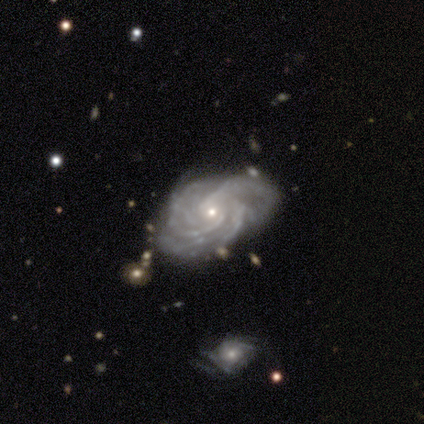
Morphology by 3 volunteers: smooth-or-featured: featured or disk: 100% | smooth: 0% | star or artifact: 0%
  disk-edge-on: no: 100% | yes: 0%
    bar: no: 67% | strong: 33% | weak: 0%
    has-spiral-arms: yes: 100% | no: 0%
      spiral-winding: tight: 100% | medium: 0% | loose: 0%
      spiral-arm-count: 3: 33% (tied) | 4: 33% (tied) | more than 4: 33% (tied) | 1: 0% | 2: 0% | can't tell: 0%
    bulge-size: small: 100% | dominant: 0% | large: 0% | moderate: 0% | none: 0%
  merging: none: 67% | minor disturbance: 33% | major disturbance: 0% | merger: 0%